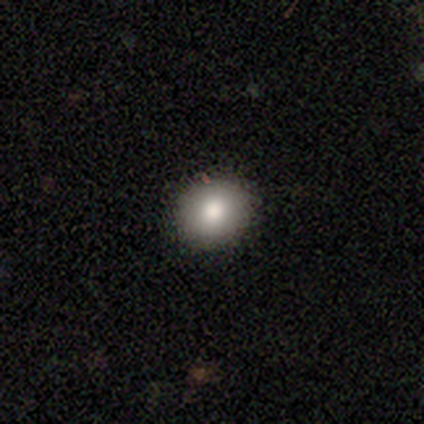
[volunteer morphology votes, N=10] Overall: smooth (100%). How rounded: round (70%; in between 30%). Merging: none (90%).